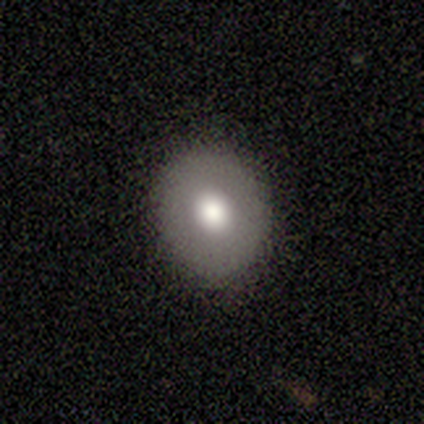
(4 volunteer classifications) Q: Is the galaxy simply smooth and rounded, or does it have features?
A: smooth — 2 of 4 (50%, tied with featured or disk).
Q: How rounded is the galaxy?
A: round — 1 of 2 (50%, tied with in between).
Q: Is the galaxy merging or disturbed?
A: none — 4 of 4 (100%).